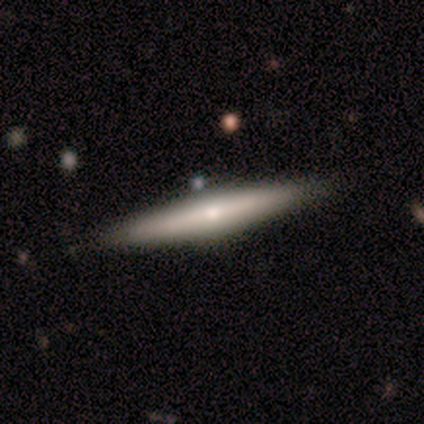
Morphology: type=featured or disk (100%); edge-on=yes (100%); edge-on bulge=rounded (100%); merging=none (80%).